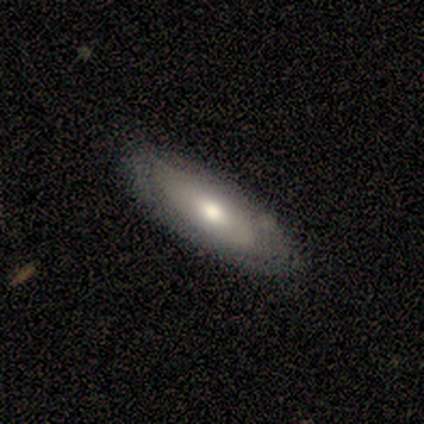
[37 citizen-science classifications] This is possibly a featured or disk galaxy (49%). It is likely not viewed edge-on (72%). Bar: likely no (69%). Spiral arm pattern: likely no (77%). Central bulge: likely moderate (77%). Merging: clearly none (86%).